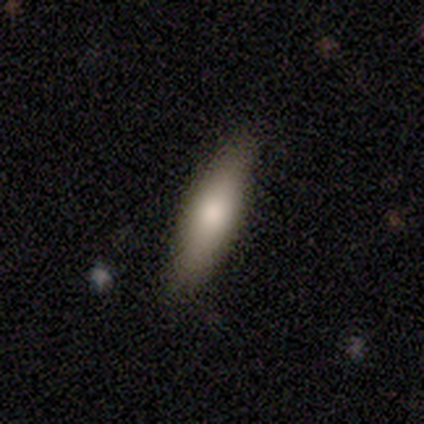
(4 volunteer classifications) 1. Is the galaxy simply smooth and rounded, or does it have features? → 100% smooth, 0% featured or disk, 0% star or artifact.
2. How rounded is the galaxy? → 75% cigar-shaped, 25% in between, 0% round.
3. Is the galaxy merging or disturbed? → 100% none, 0% minor disturbance, 0% major disturbance, 0% merger.